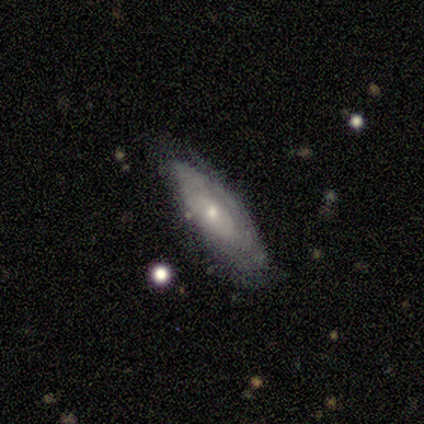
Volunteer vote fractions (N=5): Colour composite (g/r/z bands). It shows a featured or disk galaxy (60%) with no bar (100%), tight (100%) spiral arms (100%) and a small central bulge (100%). Merging: none (100%).